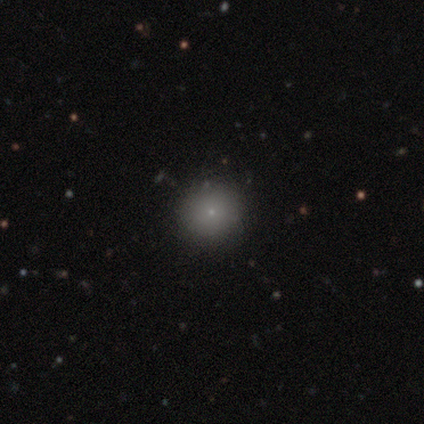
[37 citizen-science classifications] Overall: smooth (76%). How rounded: round (93%). Merging: none (97%).